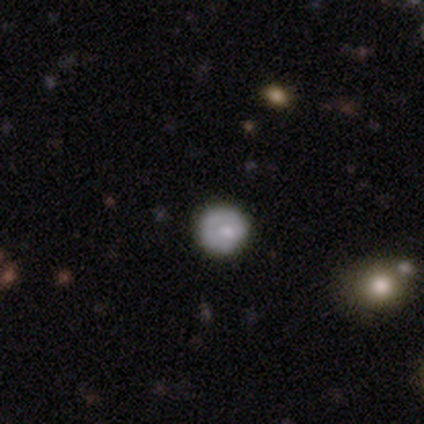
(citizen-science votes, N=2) Overall: smooth (100%). How rounded: round (50%, tied with in between). Merging: none (100%).